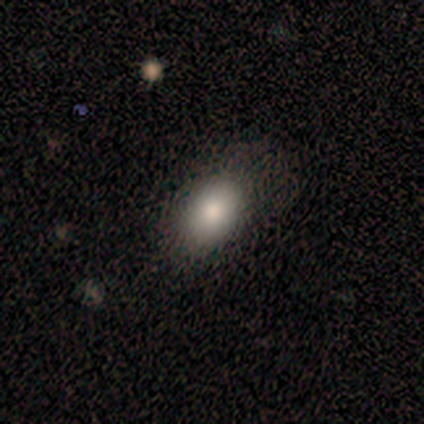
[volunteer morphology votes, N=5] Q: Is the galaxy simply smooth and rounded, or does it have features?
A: smooth — 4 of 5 (80%).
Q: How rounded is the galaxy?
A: in between — 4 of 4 (100%).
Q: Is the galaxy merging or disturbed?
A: none — 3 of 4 (75%).